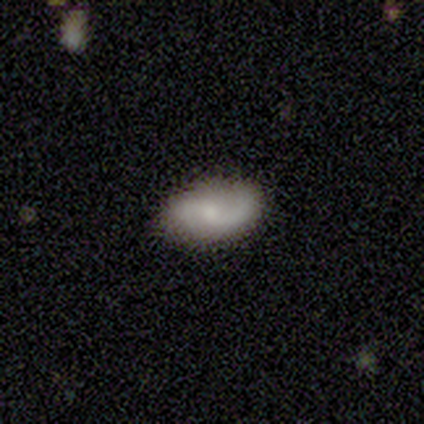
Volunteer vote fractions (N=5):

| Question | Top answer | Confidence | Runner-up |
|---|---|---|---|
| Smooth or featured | featured or disk | 80% | smooth (20%) |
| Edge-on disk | no | 75% | yes (25%) |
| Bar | weak | 67% | no (33%) |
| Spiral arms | yes | 100% | — |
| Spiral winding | loose | 67% | medium (33%) |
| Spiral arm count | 2 | 67% | 1 (33%) |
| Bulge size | small | 67% | moderate (33%) |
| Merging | none | 60% | minor disturbance (20%) |